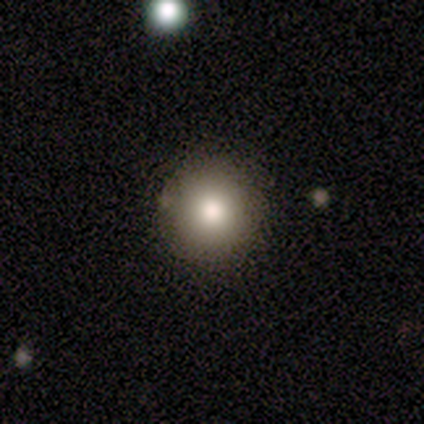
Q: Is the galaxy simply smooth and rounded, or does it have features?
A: smooth — 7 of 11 (64%).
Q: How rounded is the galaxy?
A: round — 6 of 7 (86%).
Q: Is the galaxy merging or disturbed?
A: none — 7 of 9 (78%).